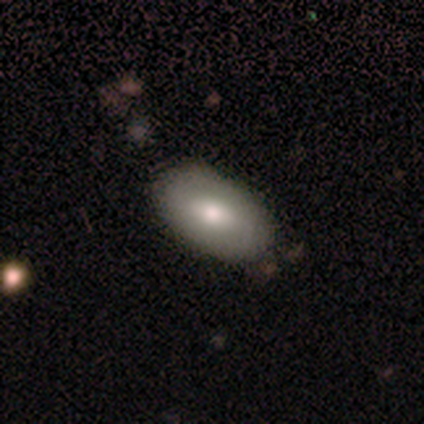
Smooth or featured? smooth (50%, tied with featured or disk)
How rounded? in between (100%)
Merging? none (100%)